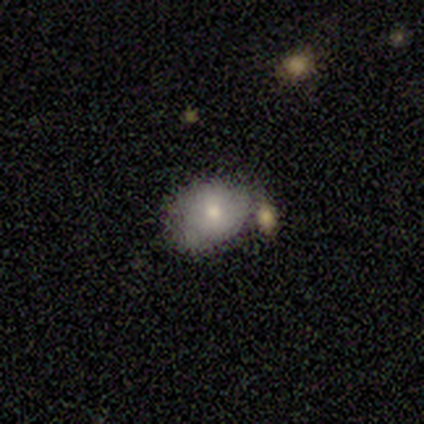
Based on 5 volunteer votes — Overall: smooth (60%; featured or disk 40%). How rounded: round (67%; in between 33%). Merging: none (40%, tied with minor disturbance).